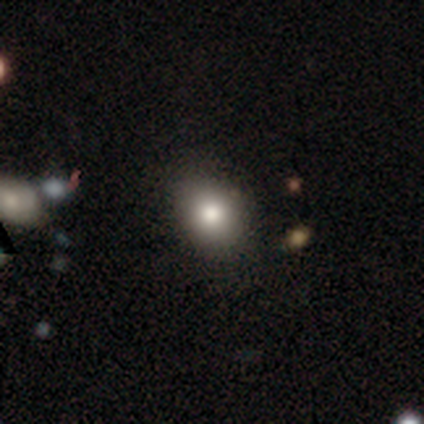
Volunteers were most divided on "smooth or featured": smooth: 80%, star or artifact: 20%, featured or disk: 0%. More confident: how rounded — round (100%); merging — none (100%).